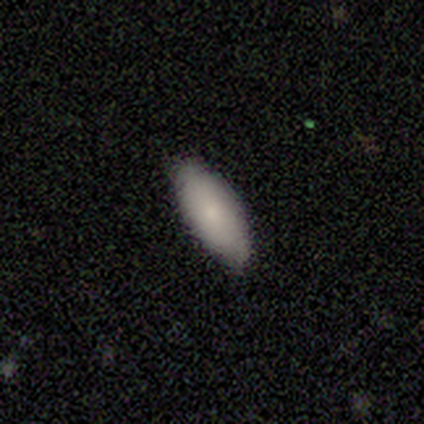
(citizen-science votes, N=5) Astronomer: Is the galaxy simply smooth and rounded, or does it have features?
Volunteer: smooth — 80%.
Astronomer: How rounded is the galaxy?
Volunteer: in between — 50%, tied with cigar-shaped at 50%.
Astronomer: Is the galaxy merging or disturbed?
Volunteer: none — 100%.